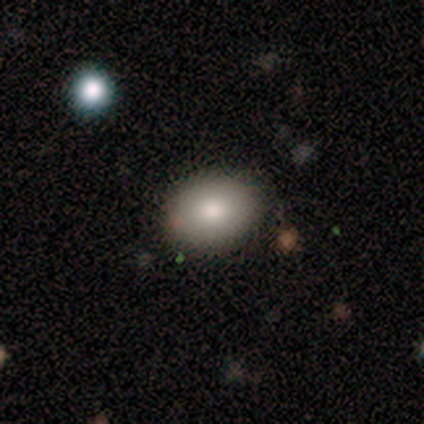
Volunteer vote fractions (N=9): Q: Smooth or featured?
A: smooth (100%)
Q: How rounded?
A: in between (56%); runner-up: round (44%)
Q: Merging?
A: none (78%); runner-up: minor disturbance (22%)